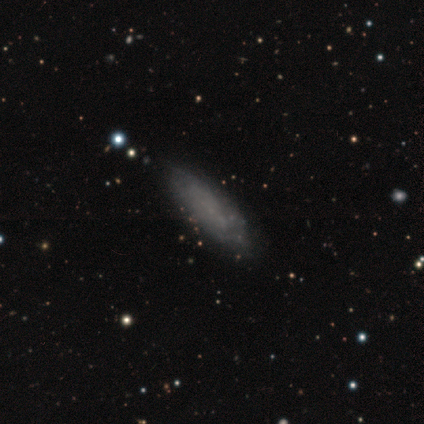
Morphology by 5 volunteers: This is likely a smooth galaxy (60%). How rounded: likely in between (67%). Merging: clearly none (80%).